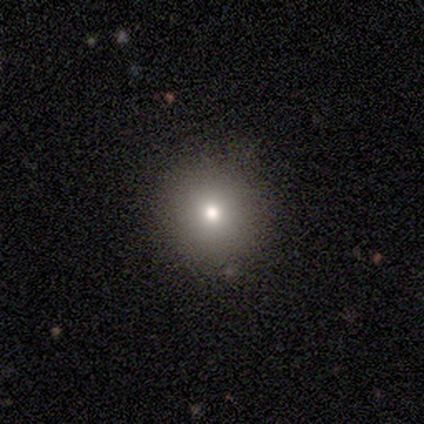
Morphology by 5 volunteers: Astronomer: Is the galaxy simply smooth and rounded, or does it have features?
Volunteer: smooth — 100%.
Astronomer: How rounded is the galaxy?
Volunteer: round — 60% (runner-up: in between, 40%).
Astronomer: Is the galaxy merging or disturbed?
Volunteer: none — 100%.